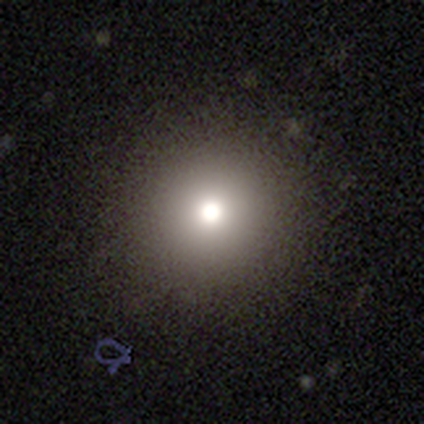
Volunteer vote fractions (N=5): Volunteers were most divided on "smooth or featured": smooth: 60%, featured or disk: 20%, star or artifact: 20%. More confident: how rounded — round (100%); merging — none (75%).